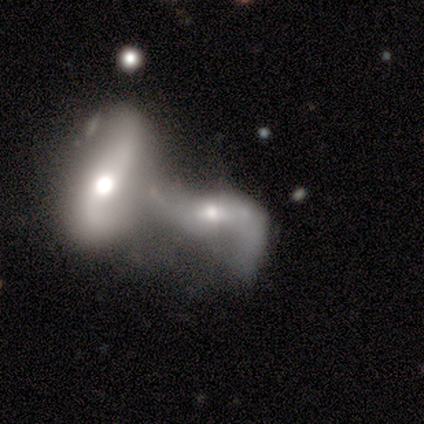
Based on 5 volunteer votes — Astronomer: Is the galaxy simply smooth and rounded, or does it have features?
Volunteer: featured or disk — 100%.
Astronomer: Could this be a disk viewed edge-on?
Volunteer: no — 100%.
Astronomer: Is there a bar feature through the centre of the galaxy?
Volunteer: weak — 60% (runner-up: no, 40%).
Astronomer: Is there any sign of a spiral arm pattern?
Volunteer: yes — 80%.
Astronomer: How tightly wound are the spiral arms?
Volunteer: medium — 50%, tied with loose at 50%.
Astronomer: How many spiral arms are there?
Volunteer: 2 — 100%.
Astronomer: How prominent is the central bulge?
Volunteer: moderate — 80%.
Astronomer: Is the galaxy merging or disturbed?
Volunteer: merger — 100%.